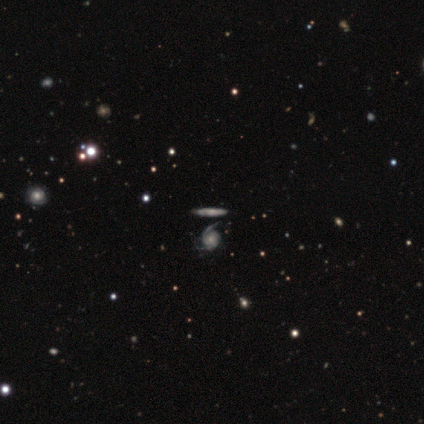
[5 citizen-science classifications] A featured or disk galaxy (80%) with no bar (67%), 2 (67%) medium (67%) spiral arms (100%) and a small central bulge (67%).

Vote fractions:
- Smooth or featured? featured or disk: 80% / smooth: 20% / star or artifact: 0%
- Edge-on disk? no: 75% / yes: 25%
- Bar? no: 67% / weak: 33% / strong: 0%
- Spiral arms? yes: 100% / no: 0%
- Spiral winding? medium: 67% / tight: 33% / loose: 0%
- Spiral arm count? 2: 67% / 1: 33% / 3: 0% / 4: 0% / more than 4: 0% / can't tell: 0%
- Bulge size? small: 67% / moderate: 33% / dominant: 0% / large: 0% / none: 0%
- Merging? none: 80% / minor disturbance: 20% / major disturbance: 0% / merger: 0%